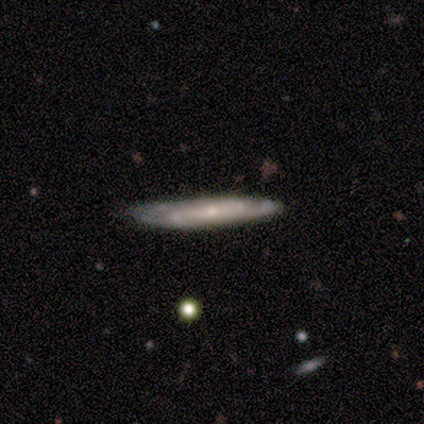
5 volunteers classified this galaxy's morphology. type=featured or disk (60%); edge-on=no (67%); bar=no (100%); spiral arms=yes (100%); winding=tight (50%, tied with medium); arm count=2 (50%, tied with 3); bulge=small (100%); merging=none (100%).